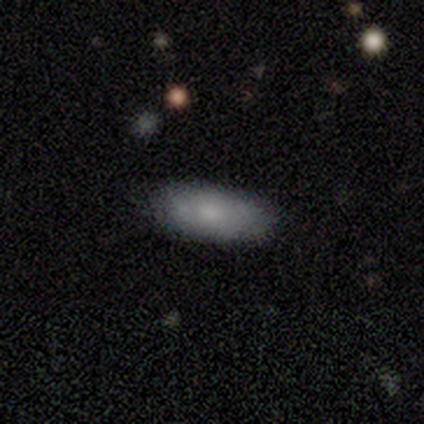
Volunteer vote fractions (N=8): Smooth or featured?
  - smooth: 75% *
  - featured or disk: 25%
  - star or artifact: 0%
How rounded?
  - in between: 100% *
  - round: 0%
  - cigar-shaped: 0%
Merging?
  - none: 88% *
  - merger: 12%
  - minor disturbance: 0%
  - major disturbance: 0%